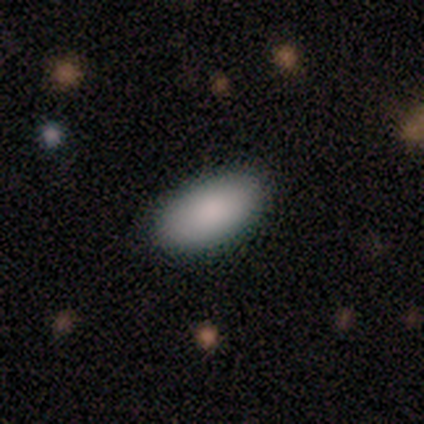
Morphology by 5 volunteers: Consensus on every question: smooth or featured — smooth (100%); how rounded — in between (100%); merging — none (100%).